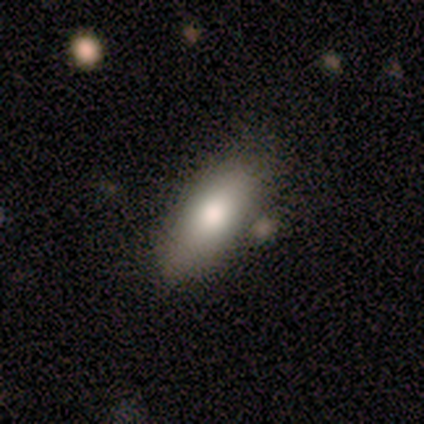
Q: Smooth or featured?
A: smooth (100%)
Q: How rounded?
A: in between (89%); runner-up: cigar-shaped (11%)
Q: Merging?
A: none (89%); runner-up: minor disturbance (11%)